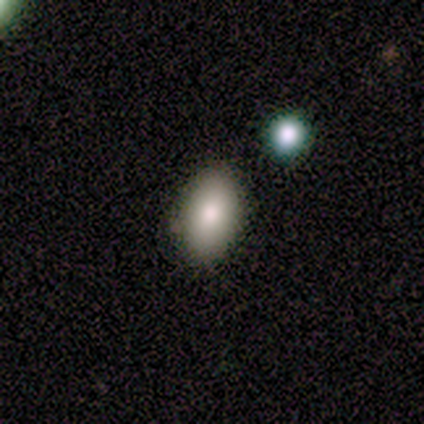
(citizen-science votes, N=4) Smooth or featured? 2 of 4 (50%) said smooth. How rounded? 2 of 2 (100%) said in between. Merging? 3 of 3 (100%) said none.